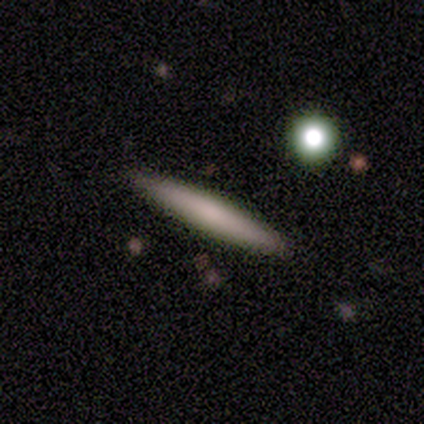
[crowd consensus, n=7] smooth-or-featured: smooth: 71% | featured or disk: 29% | star or artifact: 0%
  how-rounded: cigar-shaped: 100% | round: 0% | in between: 0%
  merging: none: 86% | minor disturbance: 14% | major disturbance: 0% | merger: 0%